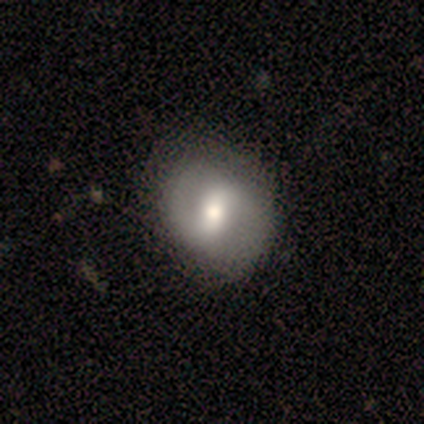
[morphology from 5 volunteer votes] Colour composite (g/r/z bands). It shows a featured or disk galaxy (60%) with a weak bar (67%), 2 (100%) medium (100%) spiral arms (67%) and a moderate central bulge (100%). Merging: none (75%).